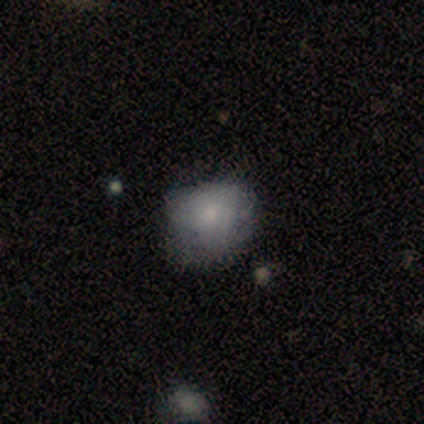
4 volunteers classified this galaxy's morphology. Smooth or featured: smooth — 50% (tied with featured or disk — 50%)
How rounded: round — 50% (tied with in between — 50%)
Merging: minor disturbance — 50% (none — 25%)